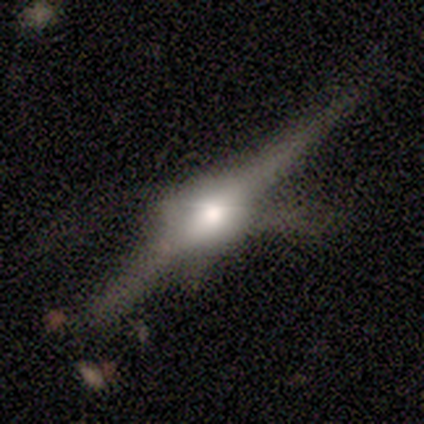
This is clearly a featured or disk galaxy (100%). It is clearly viewed edge-on (100%). Edge-on bulge: likely rounded (60%). Merging: likely major disturbance (60%).